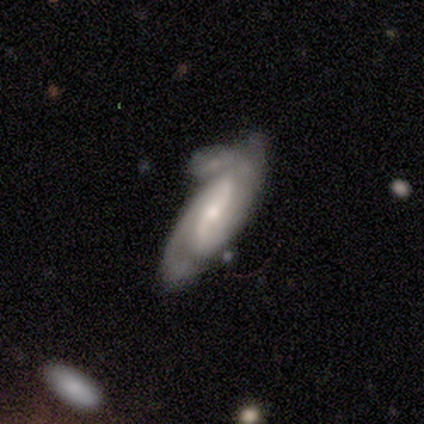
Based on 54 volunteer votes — Q: Smooth or featured?
A: featured or disk (74%); runner-up: smooth (24%)
Q: Edge-on disk?
A: no (90%); runner-up: yes (10%)
Q: Bar?
A: strong (36%); runner-up: no (33%)
Q: Spiral arms?
A: yes (97%); runner-up: no (3%)
Q: Spiral winding?
A: medium (63%); runner-up: tight (31%)
Q: Spiral arm count?
A: 2 (77%); runner-up: can't tell (17%)
Q: Bulge size?
A: moderate (53%); runner-up: small (47%)
Q: Merging?
A: minor disturbance (32%); runner-up: merger (28%)